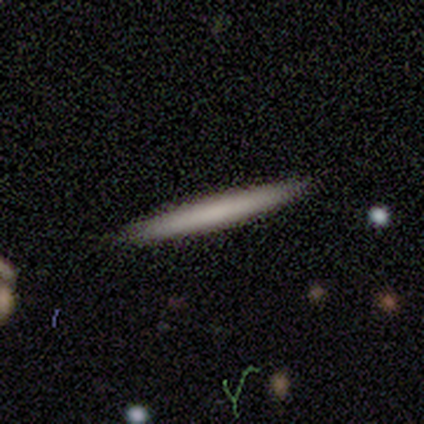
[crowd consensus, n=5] Smooth or featured? 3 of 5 (60%) said featured or disk. Edge-on disk? 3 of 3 (100%) said yes. Edge-on bulge? 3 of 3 (100%) said none. Merging? 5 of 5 (100%) said none.